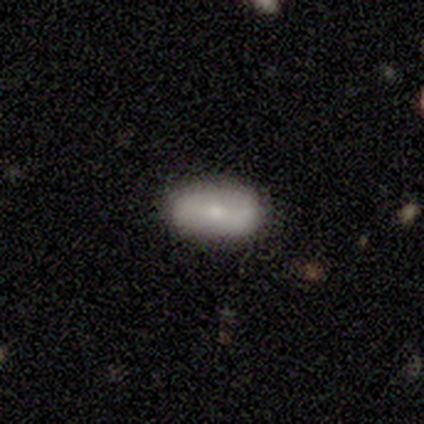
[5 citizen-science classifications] A smooth galaxy with no disk features (80%) that is in between round and cigar-shaped (100%).

Vote fractions:
- Smooth or featured? smooth: 80% / featured or disk: 20% / star or artifact: 0%
- How rounded? in between: 100% / round: 0% / cigar-shaped: 0%
- Merging? none: 100% / minor disturbance: 0% / major disturbance: 0% / merger: 0%